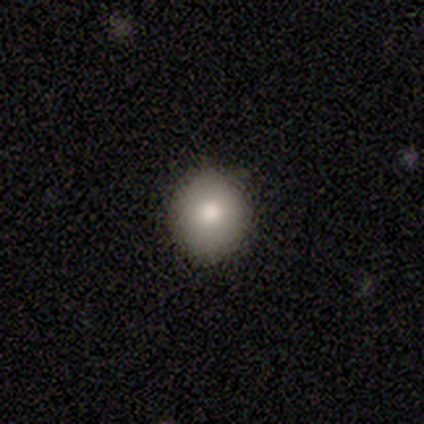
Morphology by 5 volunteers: Q: Smooth or featured?
A: smooth (100%)
Q: How rounded?
A: round (60%); runner-up: in between (40%)
Q: Merging?
A: none (100%)